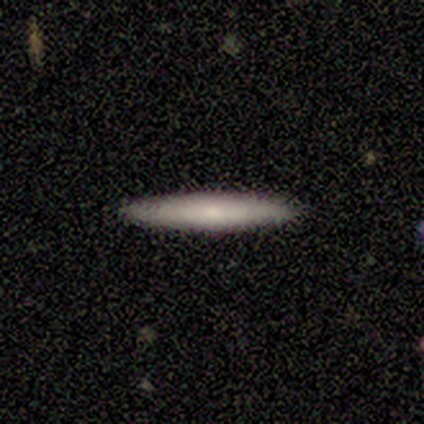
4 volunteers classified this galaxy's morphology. type=featured or disk (50%); edge-on=yes (100%); edge-on bulge=boxy (50%, tied with rounded); merging=none (100%).